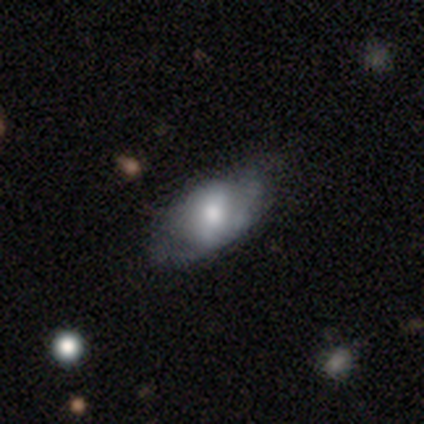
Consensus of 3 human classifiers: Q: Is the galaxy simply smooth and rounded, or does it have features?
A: smooth — 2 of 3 (67%).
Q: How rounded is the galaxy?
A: in between — 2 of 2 (100%).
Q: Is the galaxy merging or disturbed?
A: none — 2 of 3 (67%).